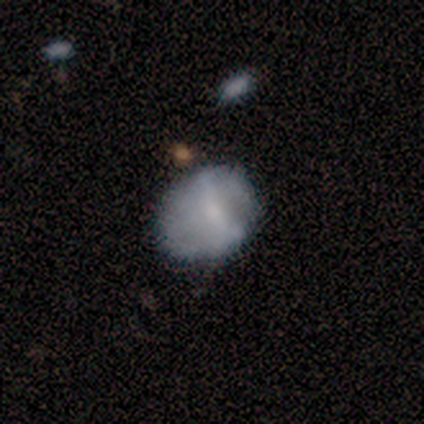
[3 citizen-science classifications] Morphology: type=featured or disk (100%); edge-on=no (100%); bar=weak (67%); spiral arms=no (100%); bulge=small (100%); merging=none (100%).